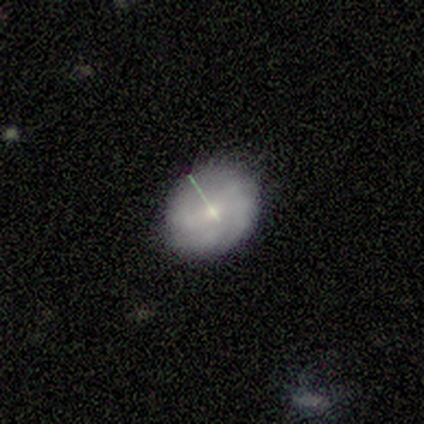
A featured or disk galaxy (100%) with a weak bar (100%), no spiral arms (100%) and a small central bulge (100%). Merging: none (100%).